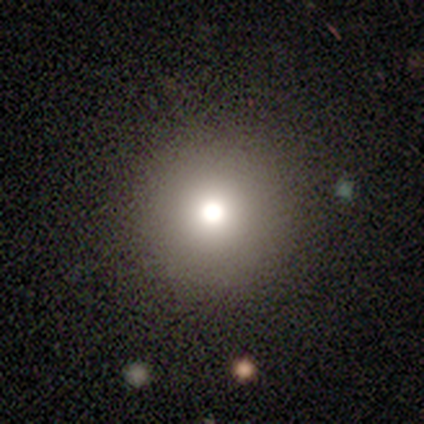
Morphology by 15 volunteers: Overall: smooth (47%; featured or disk 33%). How rounded: round (100%). Merging: none (83%).